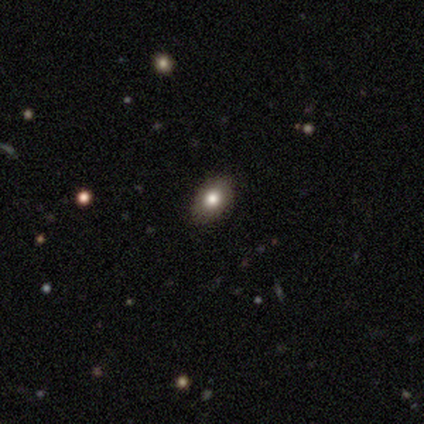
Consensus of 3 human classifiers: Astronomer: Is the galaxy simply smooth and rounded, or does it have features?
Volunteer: smooth — 67%.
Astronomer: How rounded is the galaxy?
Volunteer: in between — 100%.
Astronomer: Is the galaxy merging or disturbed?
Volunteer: none — 100%.